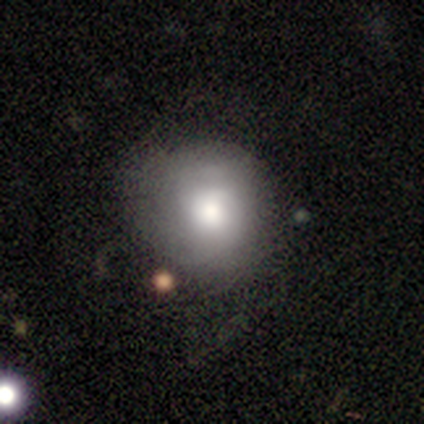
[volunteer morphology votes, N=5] Smooth or featured? 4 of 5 (80%) said smooth. How rounded? 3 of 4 (75%) said round. Merging? 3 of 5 (60%) said none.